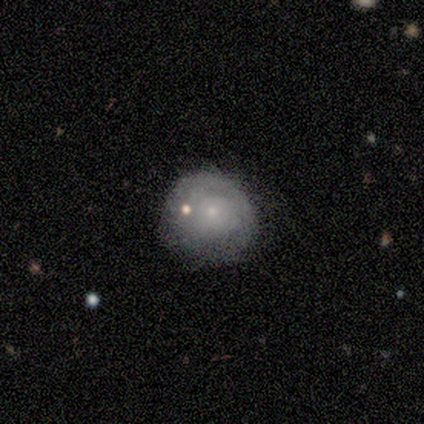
smooth_or_featured: featured or disk (p=0.60) [alt: star or artifact p=0.40]
disk_edge_on: no (p=1.00)
bar: no (p=1.00)
has_spiral_arms: no (p=0.67) [alt: yes p=0.33]
bulge_size: small (p=1.00)
merging: none (p=0.33) [tied with: minor disturbance p=0.33, merger p=0.33]